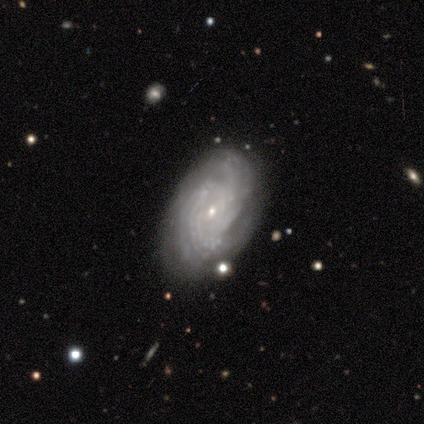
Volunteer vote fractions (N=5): smooth_or_featured: featured or disk (p=1.00)
disk_edge_on: no (p=1.00)
bar: no (p=0.60) [alt: weak p=0.40]
has_spiral_arms: yes (p=1.00)
spiral_winding: tight (p=0.80) [alt: medium p=0.20]
spiral_arm_count: can't tell (p=0.40) [alt: 2 p=0.20]
bulge_size: small (p=1.00)
merging: none (p=1.00)